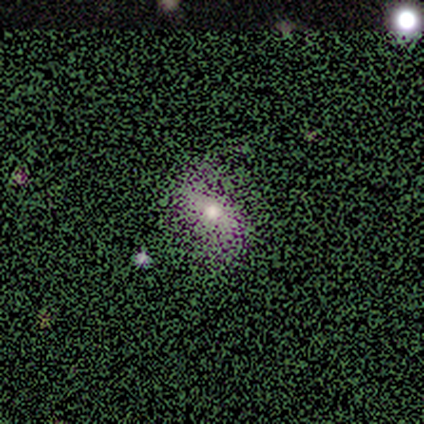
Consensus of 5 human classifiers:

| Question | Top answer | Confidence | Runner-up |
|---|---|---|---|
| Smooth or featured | star or artifact | 60% | featured or disk (40%) |